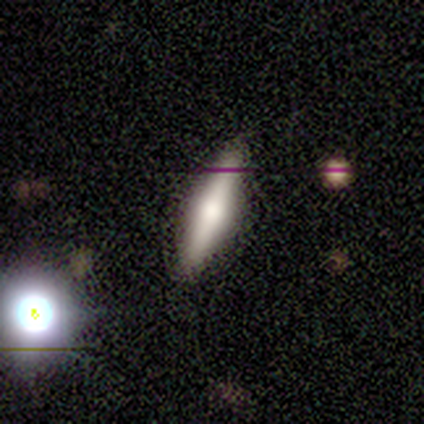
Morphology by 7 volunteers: Q: Smooth or featured?
A: featured or disk (57%); runner-up: smooth (29%)
Q: Edge-on disk?
A: yes (75%); runner-up: no (25%)
Q: Edge-on bulge?
A: rounded (100%)
Q: Merging?
A: none (67%); runner-up: minor disturbance (33%)